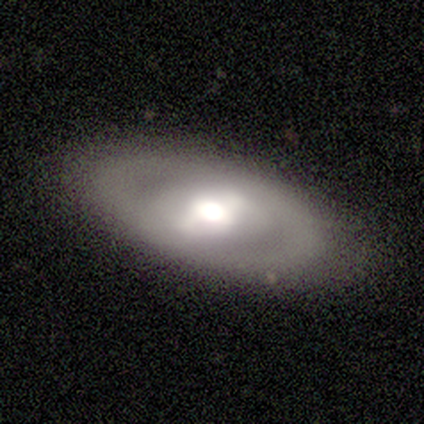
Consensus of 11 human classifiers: Volunteers were most divided on "bulge size": moderate: 50%, large: 38%, dominant: 12%, small: 0%, none: 0%. More confident: edge-on disk — no (100%); merging — none (82%); spiral arms — no (75%); bar — strong (75%); smooth or featured — featured or disk (73%).